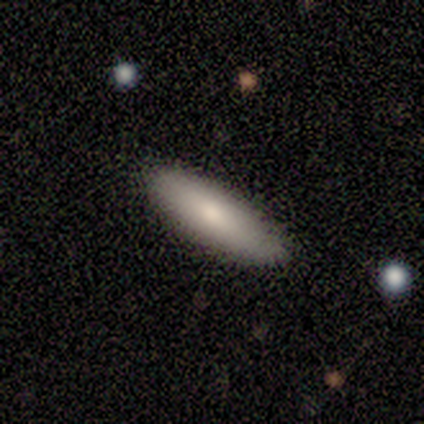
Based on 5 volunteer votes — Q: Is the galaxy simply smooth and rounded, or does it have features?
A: smooth — 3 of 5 (60%).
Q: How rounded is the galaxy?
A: in between — 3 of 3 (100%).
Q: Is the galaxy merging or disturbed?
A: none — 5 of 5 (100%).